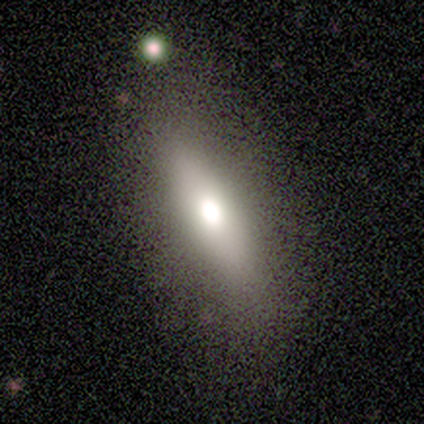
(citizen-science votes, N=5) smooth-or-featured: smooth: 60% | featured or disk: 40% | star or artifact: 0%
  how-rounded: cigar-shaped: 67% | in between: 33% | round: 0%
  merging: none: 80% | minor disturbance: 20% | major disturbance: 0% | merger: 0%